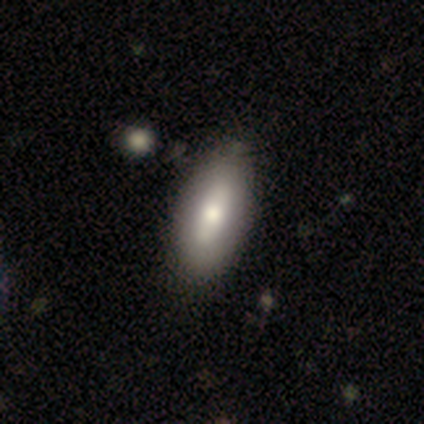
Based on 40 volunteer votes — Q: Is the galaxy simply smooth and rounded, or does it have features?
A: smooth — 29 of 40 (72%).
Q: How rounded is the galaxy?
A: in between — 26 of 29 (90%).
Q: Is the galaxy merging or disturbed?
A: none — 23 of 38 (61%).